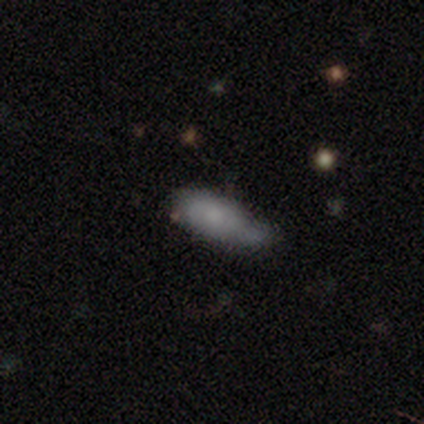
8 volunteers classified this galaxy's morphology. smooth_or_featured: smooth (p=0.75) [alt: featured or disk p=0.12]
how_rounded: in between (p=1.00)
merging: minor disturbance (p=0.71) [alt: none p=0.29]